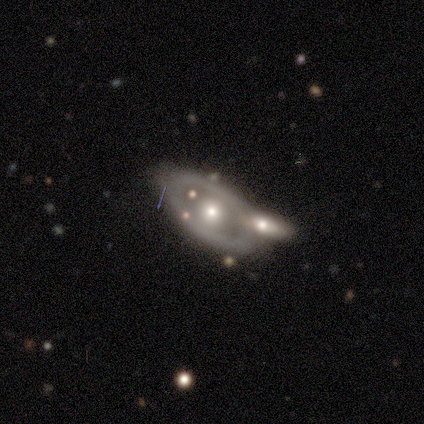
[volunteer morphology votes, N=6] featured or disk 83%, smooth 17%, star or artifact 0%. Down the decision tree: edge-on disk — no (100%); bar — no (100%); spiral arms — no (60%); bulge size — moderate (100%); merging — none (33%, tied with minor disturbance and merger).